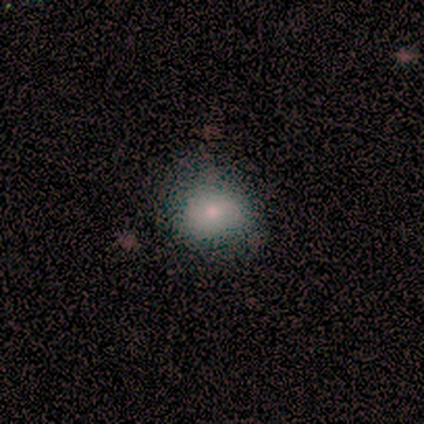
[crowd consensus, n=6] Smooth or featured? smooth (83%)
How rounded? round (60%)
Merging? none (83%)